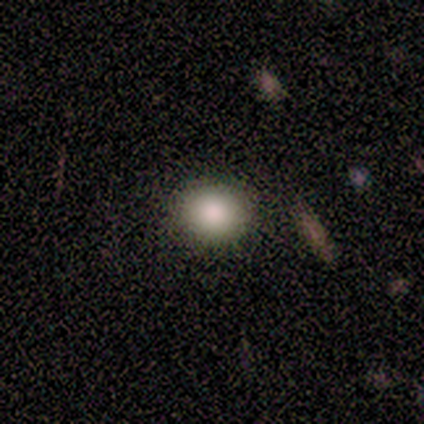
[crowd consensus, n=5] smooth_or_featured: smooth (p=1.00)
how_rounded: round (p=0.80) [alt: in between p=0.20]
merging: none (p=1.00)